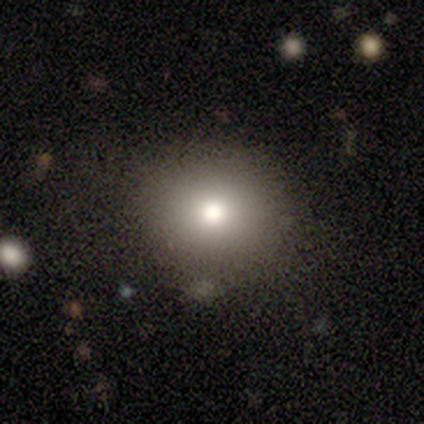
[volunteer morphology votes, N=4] Smooth or featured? smooth (50%, tied with featured or disk)
How rounded? round (50%, tied with in between)
Merging? none (100%)